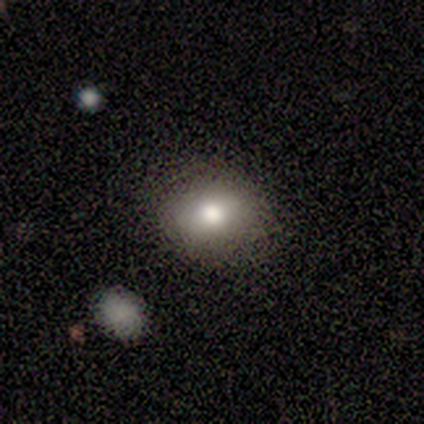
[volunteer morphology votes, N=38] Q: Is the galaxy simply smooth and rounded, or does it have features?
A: smooth — 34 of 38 (89%).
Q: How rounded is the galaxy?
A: in between — 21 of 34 (62%).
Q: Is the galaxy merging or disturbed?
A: none — 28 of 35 (80%).